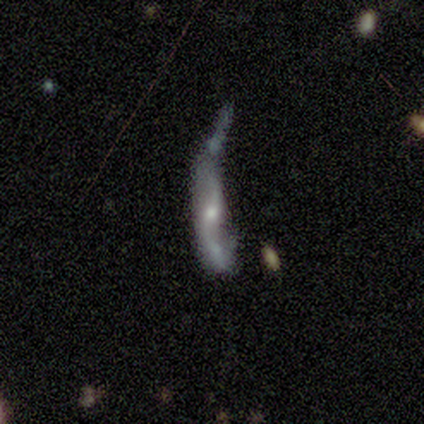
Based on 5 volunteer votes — A featured or disk galaxy (60%) with no bar (100%), no spiral arms (100%) and a small central bulge (100%). Merging: none (40%, tied with major disturbance).